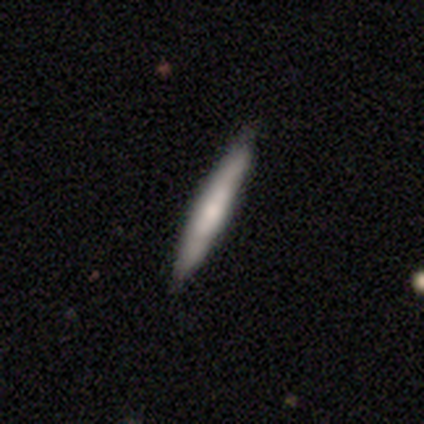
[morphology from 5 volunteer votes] A featured or disk galaxy (80%) viewed edge-on (100%) with no central bulge (100%). Merging: none (60%).